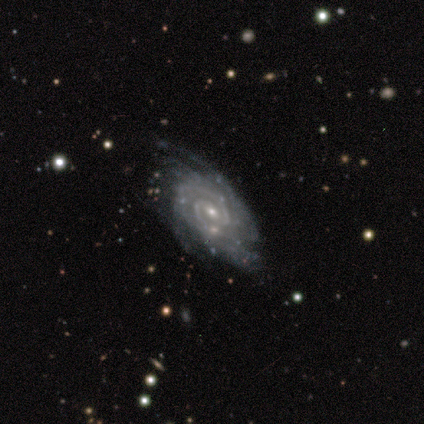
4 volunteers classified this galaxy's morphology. featured or disk 100%, smooth 0%, star or artifact 0%. Down the decision tree: edge-on disk — no (100%); bar — no (50%); spiral arms — yes (100%); spiral arm count — 2 (50%, tied with can't tell); spiral winding — tight (75%); bulge size — small (50%); merging — none (50%).